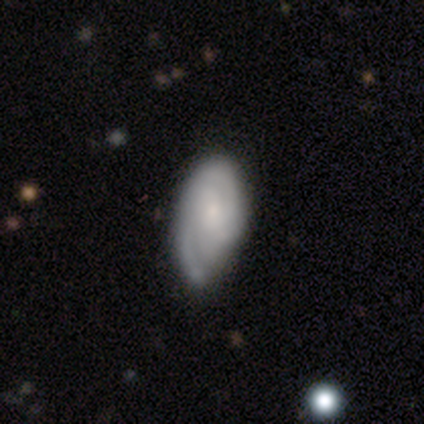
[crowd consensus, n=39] Volunteers were most divided on "merging" (2-way tie): none: 37%, minor disturbance: 37%, major disturbance: 8%, merger: 0%. Remaining: edge-on disk — no (100%); spiral arms — yes (92%); bulge size — small (68%); smooth or featured — featured or disk (64%); bar — no (60%); spiral winding — tight (48%); spiral arm count — 2 (43%).